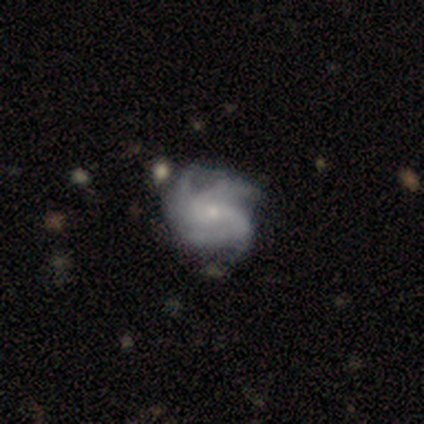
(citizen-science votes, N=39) A featured or disk galaxy (90%) with no bar (67%), 3 (45%) tight (45%, tied with medium) spiral arms (100%) and a small central bulge (79%).

Vote fractions:
- Smooth or featured? featured or disk: 90% / smooth: 8% / star or artifact: 3%
- Edge-on disk? no: 94% / yes: 6%
- Bar? no: 67% / weak: 27% / strong: 6%
- Spiral arms? yes: 100% / no: 0%
- Spiral winding? tight: 45% (tied) / medium: 45% (tied) / loose: 9%
- Spiral arm count? 3: 45% / 4: 42% / 2: 6% / can't tell: 6% / 1: 0% / more than 4: 0%
- Bulge size? small: 79% / moderate: 18% / none: 3% / dominant: 0% / large: 0%
- Merging? none: 34% / minor disturbance: 21% / merger: 11% / major disturbance: 5%